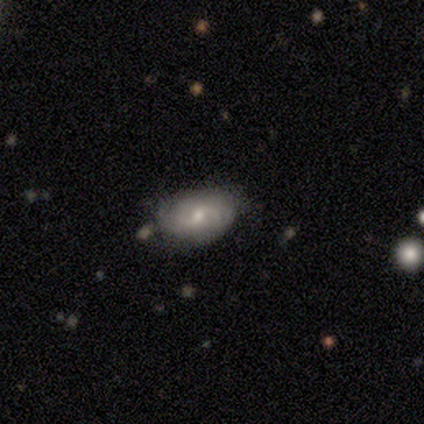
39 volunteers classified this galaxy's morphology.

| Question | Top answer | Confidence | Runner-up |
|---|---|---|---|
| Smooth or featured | featured or disk | 64% | smooth (26%) |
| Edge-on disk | no | 100% | — |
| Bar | weak | 76% | no (16%) |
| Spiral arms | yes | 92% | no (8%) |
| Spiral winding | tight | 70% | medium (17%) |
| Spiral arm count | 2 | 48% | can't tell (35%) |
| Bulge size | moderate | 56% | small (40%) |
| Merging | none | 83% | minor disturbance (14%) |